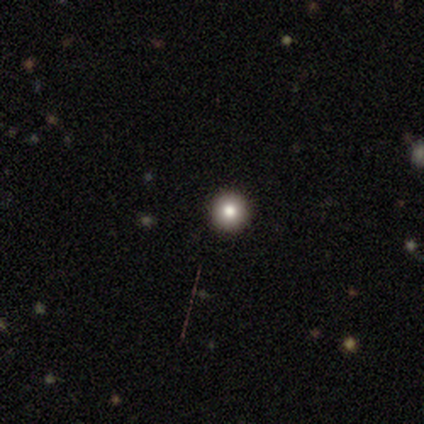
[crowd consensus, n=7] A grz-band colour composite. It shows a smooth galaxy with no disk features (71%) that is round (100%). Merging: none (100%).